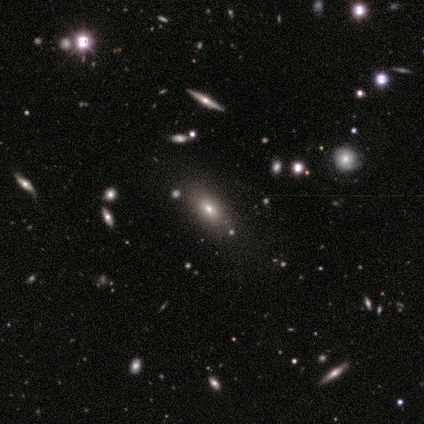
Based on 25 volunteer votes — Smooth or featured: smooth — 56% (star or artifact — 24%)
How rounded: in between — 93% (cigar-shaped — 7%)
Merging: none — 79% (minor disturbance — 11%)